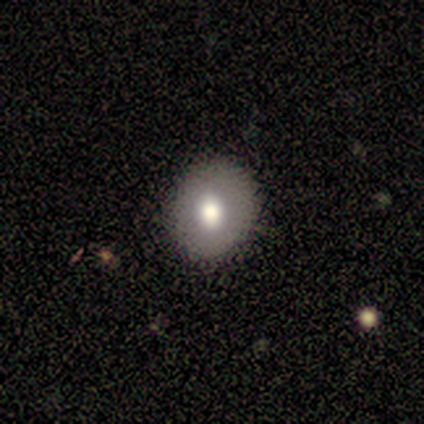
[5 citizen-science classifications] smooth-or-featured: smooth: 100% | featured or disk: 0% | star or artifact: 0%
  how-rounded: round: 100% | in between: 0% | cigar-shaped: 0%
  merging: none: 100% | minor disturbance: 0% | major disturbance: 0% | merger: 0%